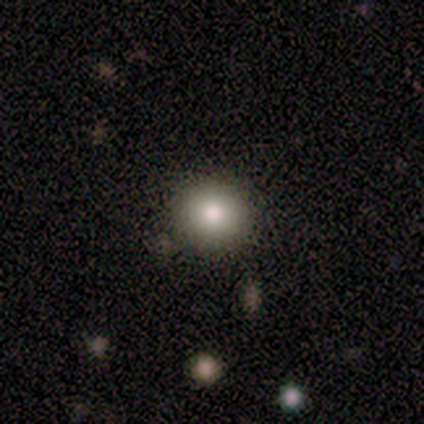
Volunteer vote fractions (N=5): Smooth or featured? 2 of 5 (40%, tied with star or artifact) said smooth. How rounded? 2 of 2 (100%) said round. Merging? 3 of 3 (100%) said none.